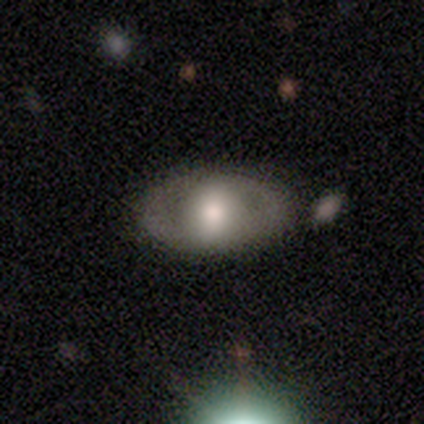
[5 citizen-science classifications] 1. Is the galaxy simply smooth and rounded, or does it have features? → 60% featured or disk, 20% smooth, 20% star or artifact.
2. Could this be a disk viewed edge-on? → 67% no, 33% yes.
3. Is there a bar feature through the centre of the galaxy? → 50% weak (tied), 50% no (tied), 0% strong.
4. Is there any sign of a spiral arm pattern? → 100% no, 0% yes.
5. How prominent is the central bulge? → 100% moderate, 0% dominant, 0% large, 0% small, 0% none.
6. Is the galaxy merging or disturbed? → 75% none, 25% minor disturbance, 0% major disturbance, 0% merger.